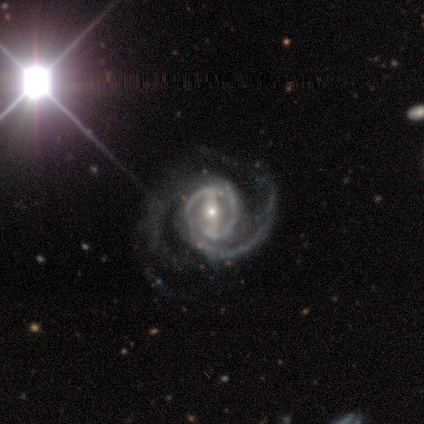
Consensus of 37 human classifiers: Smooth or featured? featured or disk (100%)
Edge-on disk? no (100%)
Bar? strong (59%)
Spiral arms? yes (100%)
Spiral winding? medium (49%)
Spiral arm count? 2 (78%)
Bulge size? small (57%)
Merging? none (51%)